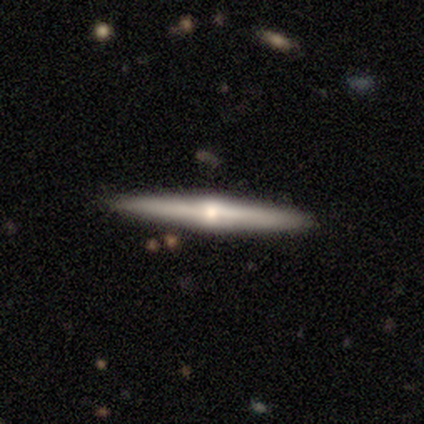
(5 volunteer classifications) Smooth or featured? 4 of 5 (80%) said featured or disk. Edge-on disk? 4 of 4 (100%) said yes. Edge-on bulge? 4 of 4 (100%) said rounded. Merging? 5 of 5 (100%) said none.